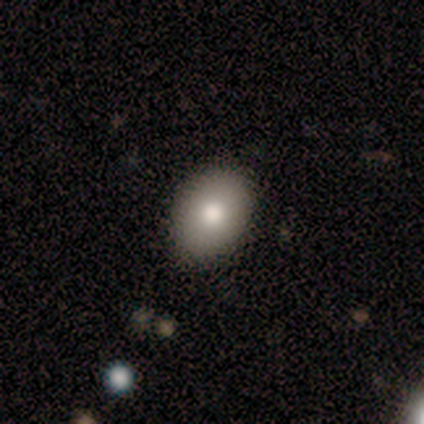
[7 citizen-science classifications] Volunteers were most divided on "how rounded": in between: 86%, round: 14%, cigar-shaped: 0%. More confident: smooth or featured — smooth (100%); merging — none (86%).